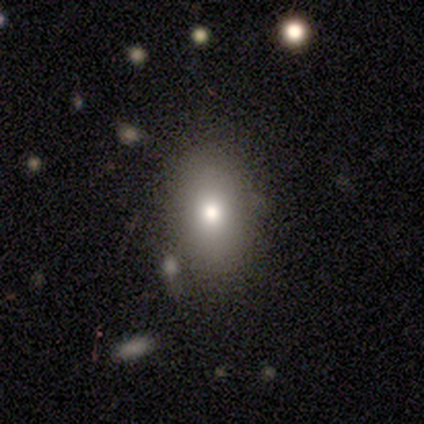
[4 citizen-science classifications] Smooth or featured: smooth — 75% (featured or disk — 25%)
How rounded: in between — 67% (round — 33%)
Merging: none — 100%